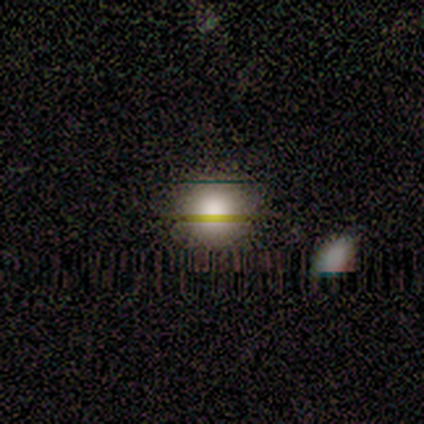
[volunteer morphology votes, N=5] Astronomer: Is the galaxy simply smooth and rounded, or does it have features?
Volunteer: smooth — 60% (runner-up: featured or disk, 40%).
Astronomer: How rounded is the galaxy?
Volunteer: round — 100%.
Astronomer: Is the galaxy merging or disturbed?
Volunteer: none — 80%.